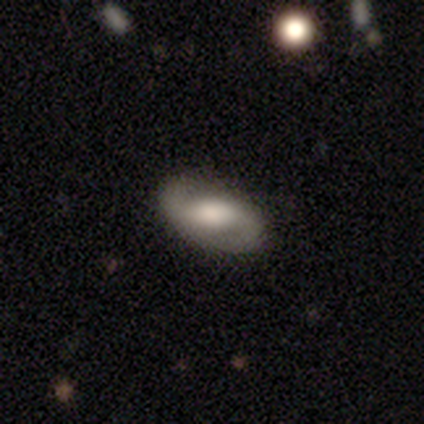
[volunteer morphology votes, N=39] smooth_or_featured: featured or disk (p=0.64) [alt: smooth p=0.33]
disk_edge_on: no (p=0.92) [alt: yes p=0.08]
bar: weak (p=0.57) [alt: strong p=0.22]
has_spiral_arms: yes (p=0.91) [alt: no p=0.09]
spiral_winding: medium (p=0.43) [alt: loose p=0.33]
spiral_arm_count: 2 (p=0.95) [alt: 1 p=0.05]
bulge_size: moderate (p=0.43) [alt: small p=0.26]
merging: none (p=0.74) [alt: minor disturbance p=0.13]